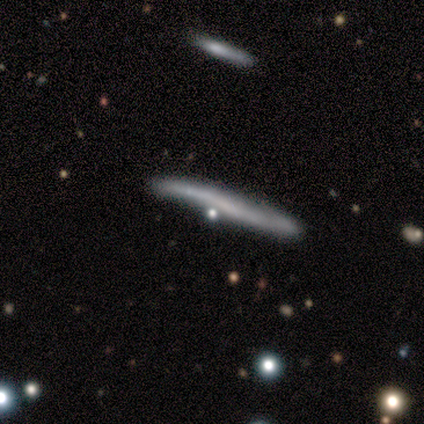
A featured or disk galaxy (44%) viewed edge-on (100%) with no central bulge (100%). Merging: none (57%).